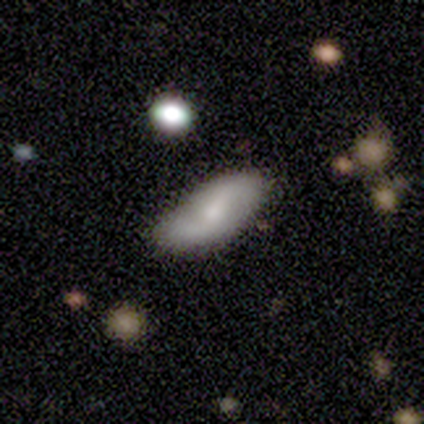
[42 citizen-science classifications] This is possibly a smooth galaxy (50%). How rounded: likely in between (71%). Merging: likely none (62%).